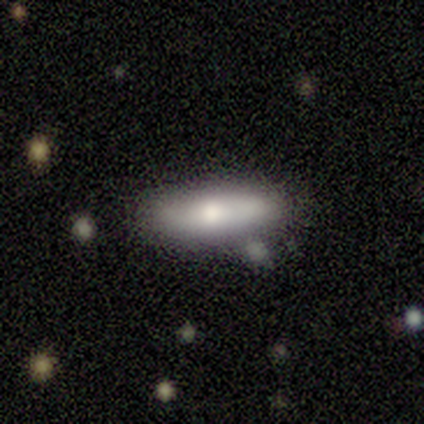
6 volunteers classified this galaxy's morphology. A smooth galaxy with no disk features (83%) that is cigar-shaped (80%). Merging: none (50%, tied with minor disturbance).